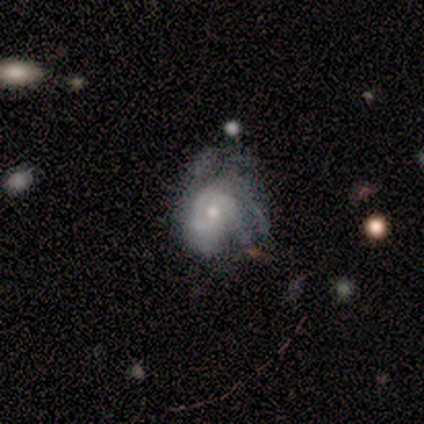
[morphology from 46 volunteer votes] Volunteers were most divided on "merging": none: 33%, minor disturbance: 30%, major disturbance: 28%, merger: 9%. More confident: edge-on disk — no (100%); smooth or featured — featured or disk (89%); bar — no (80%); spiral arms — yes (76%); bulge size — moderate (59%); spiral arm count — can't tell (55%); spiral winding — tight (52%).